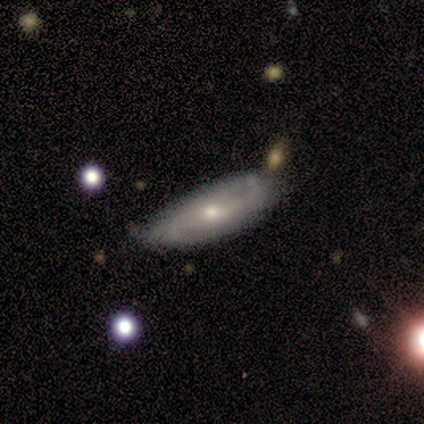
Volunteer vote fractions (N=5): Smooth or featured: featured or disk — 60% (smooth — 40%)
Edge-on disk: no — 100%
Bar: no — 100%
Spiral arms: yes — 67% (no — 33%)
Spiral winding: loose — 100%
Spiral arm count: 2 — 50% (tied with can't tell — 50%)
Bulge size: moderate — 67% (small — 33%)
Merging: none — 100%